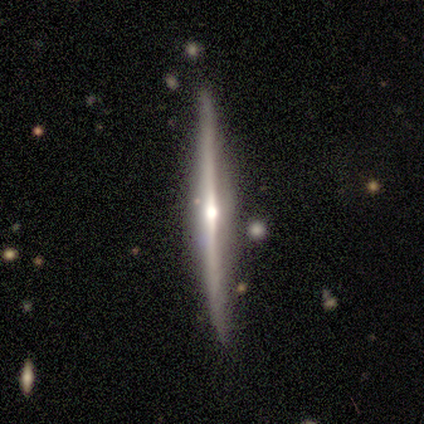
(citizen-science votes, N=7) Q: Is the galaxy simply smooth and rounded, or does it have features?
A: featured or disk — 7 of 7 (100%).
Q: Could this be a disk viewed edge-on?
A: yes — 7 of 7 (100%).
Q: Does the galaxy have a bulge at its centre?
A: rounded — 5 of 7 (71%).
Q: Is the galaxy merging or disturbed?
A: none — 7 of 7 (100%).